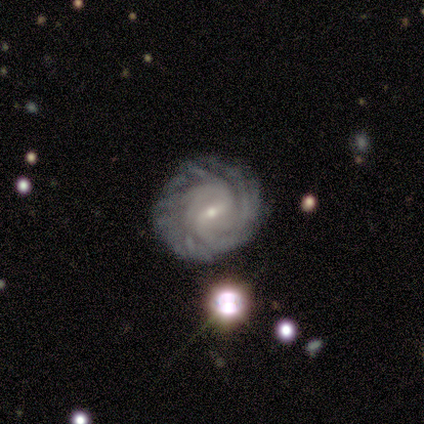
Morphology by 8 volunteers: type=featured or disk (88%); edge-on=no (100%); bar=weak (43%, tied with no); spiral arms=yes (86%); winding=tight (83%); arm count=can't tell (67%); bulge=small (71%); merging=none (75%).